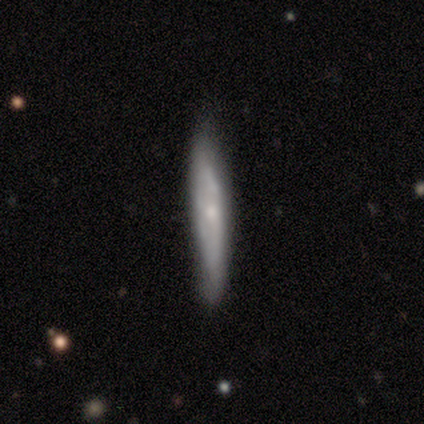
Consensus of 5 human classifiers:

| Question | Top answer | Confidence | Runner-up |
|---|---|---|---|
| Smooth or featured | featured or disk | 80% | smooth (20%) |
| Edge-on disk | yes | 75% | no (25%) |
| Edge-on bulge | none | 100% | — |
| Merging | minor disturbance | 60% | none (40%) |